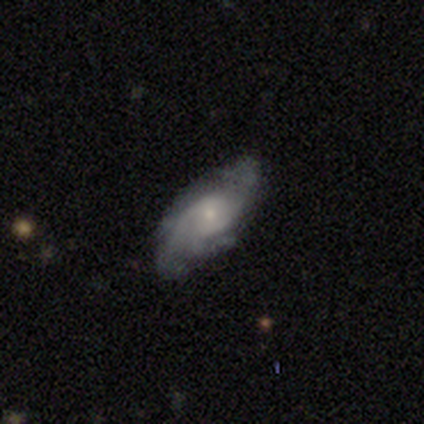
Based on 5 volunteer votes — Q: Smooth or featured?
A: featured or disk (80%); runner-up: smooth (20%)
Q: Edge-on disk?
A: no (100%)
Q: Bar?
A: no (100%)
Q: Spiral arms?
A: yes (100%)
Q: Spiral winding?
A: tight (75%); runner-up: medium (25%)
Q: Spiral arm count?
A: 4 (50%); runner-up: 2 (25%)
Q: Bulge size?
A: moderate (50%); tied with: small (50%)
Q: Merging?
A: none (80%); runner-up: minor disturbance (20%)